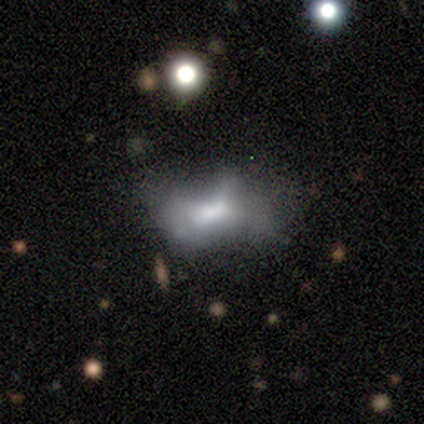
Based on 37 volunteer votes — Morphology: type=featured or disk (49%); edge-on=no (83%); bar=no (80%); spiral arms=no (100%); bulge=none (47%); merging=major disturbance (33%).